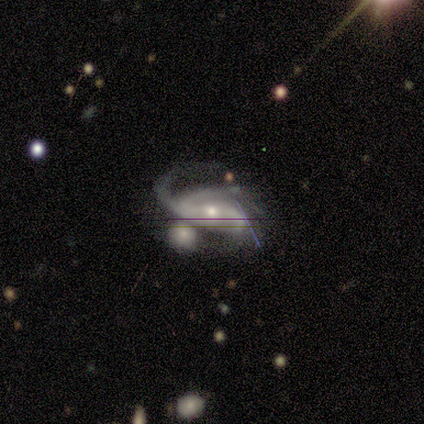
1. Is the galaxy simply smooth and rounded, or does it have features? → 100% featured or disk, 0% smooth, 0% star or artifact.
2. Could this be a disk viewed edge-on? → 100% no, 0% yes.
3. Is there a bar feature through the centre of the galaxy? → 40% strong (tied), 40% no (tied), 20% weak.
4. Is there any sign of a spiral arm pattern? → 100% yes, 0% no.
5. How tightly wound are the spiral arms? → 80% loose, 20% medium, 0% tight.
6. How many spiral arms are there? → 40% 2 (tied), 40% 3 (tied), 20% can't tell, 0% 1, 0% 4, 0% more than 4.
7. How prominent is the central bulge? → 60% moderate, 40% small, 0% dominant, 0% large, 0% none.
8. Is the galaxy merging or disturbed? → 40% minor disturbance (tied), 40% merger (tied), 20% major disturbance, 0% none.